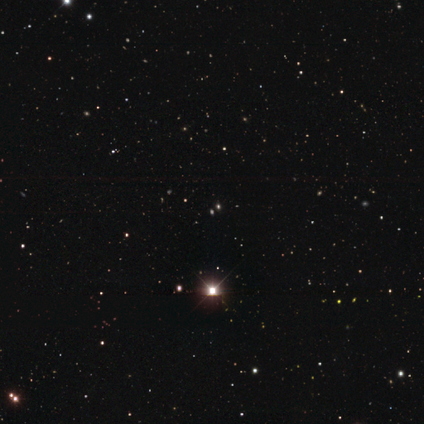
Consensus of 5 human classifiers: Morphology: type=star or artifact (100%).